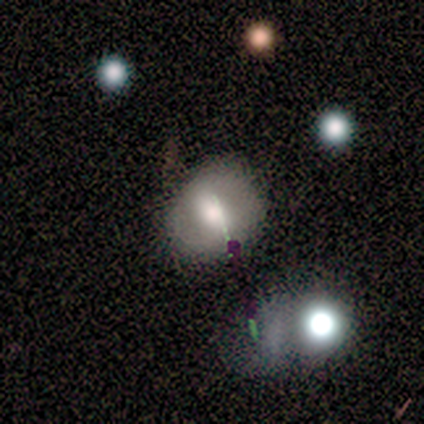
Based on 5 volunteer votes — Smooth or featured? 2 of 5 (40%, tied with star or artifact) said smooth. How rounded? 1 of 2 (50%, tied with in between) said round. Merging? 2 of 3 (67%) said none.